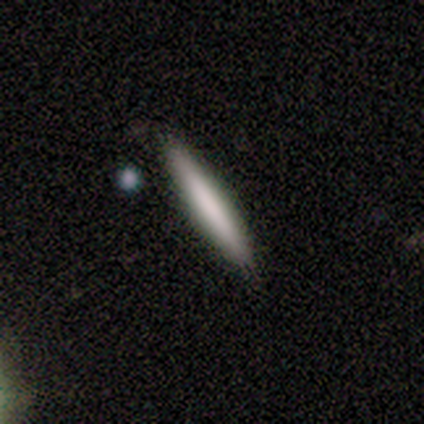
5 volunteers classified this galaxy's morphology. Q: Smooth or featured?
A: smooth (80%); runner-up: star or artifact (20%)
Q: How rounded?
A: cigar-shaped (100%)
Q: Merging?
A: none (75%); runner-up: merger (25%)